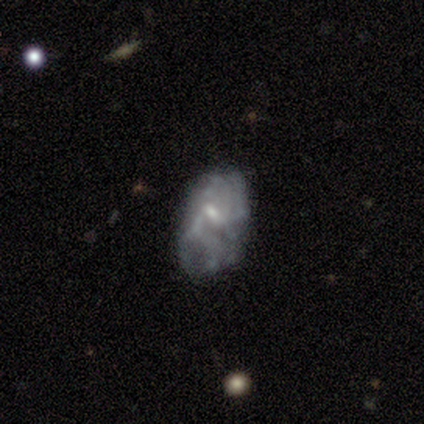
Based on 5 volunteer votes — This is likely a featured or disk galaxy (60%). It is clearly not viewed edge-on (100%). Bar: likely no (67%). Spiral arm pattern: likely yes (67%). Spiral arm count: clearly can't tell (100%). Spiral winding: possibly medium (50%, tied with loose). Central bulge: clearly small (100%). Merging: likely none (60%).